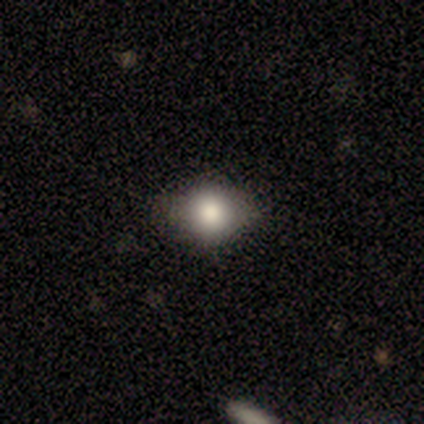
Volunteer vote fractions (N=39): Smooth or featured?
  - smooth: 74% *
  - star or artifact: 15%
  - featured or disk: 10%
How rounded?
  - round: 66% *
  - in between: 34%
  - cigar-shaped: 0%
Merging?
  - none: 82% *
  - minor disturbance: 15%
  - major disturbance: 3%
  - merger: 0%